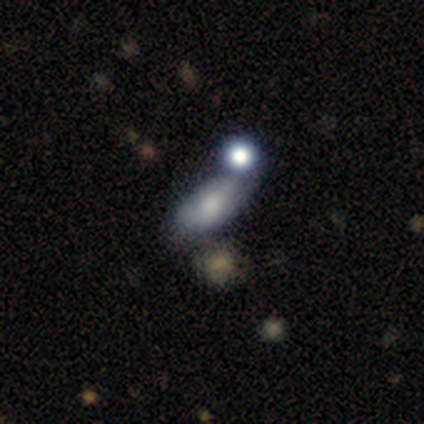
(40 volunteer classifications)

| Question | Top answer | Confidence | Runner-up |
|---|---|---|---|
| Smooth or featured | smooth | 72% | featured or disk (20%) |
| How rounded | in between | 90% | cigar-shaped (7%) |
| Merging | none | 51% | minor disturbance (24%) |